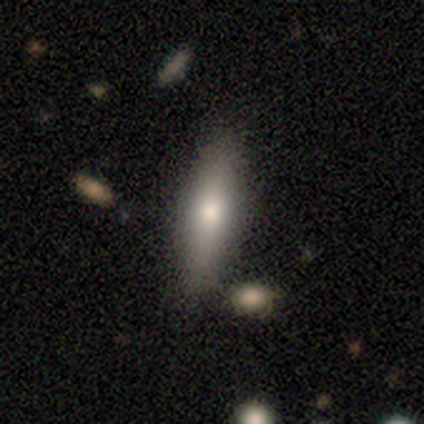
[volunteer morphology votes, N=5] This is clearly a smooth galaxy (80%). How rounded: possibly in between (50%, tied with cigar-shaped). Merging: clearly none (80%).